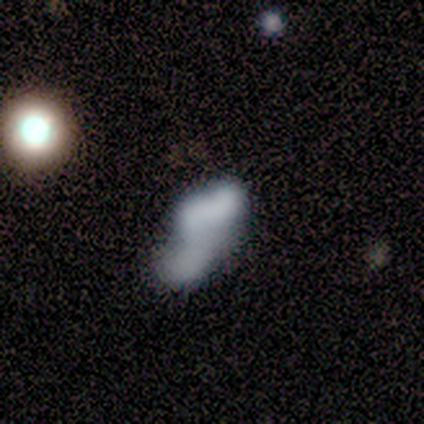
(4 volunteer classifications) smooth_or_featured: smooth (p=0.75) [alt: featured or disk p=0.25]
how_rounded: in between (p=1.00)
merging: none (p=0.25) [tied with: minor disturbance p=0.25, major disturbance p=0.25, merger p=0.25]